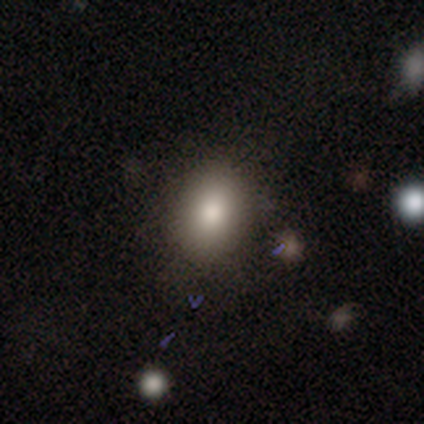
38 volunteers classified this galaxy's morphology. smooth_or_featured: smooth (p=0.68) [alt: star or artifact p=0.26]
how_rounded: in between (p=0.69) [alt: round p=0.31]
merging: none (p=0.86) [alt: merger p=0.07]